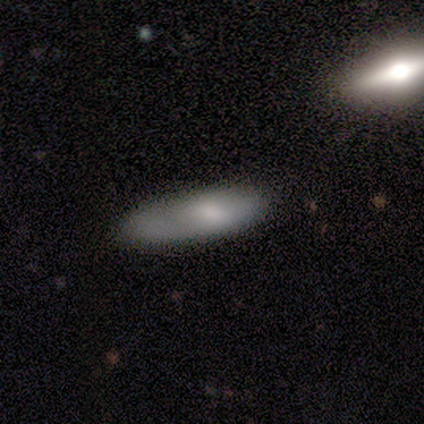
A smooth galaxy with no disk features (60%) that is cigar-shaped (67%).

Vote fractions:
- Smooth or featured? smooth: 60% / featured or disk: 40% / star or artifact: 0%
- How rounded? cigar-shaped: 67% / in between: 33% / round: 0%
- Merging? none: 40% (tied) / minor disturbance: 40% (tied) / major disturbance: 20% / merger: 0%